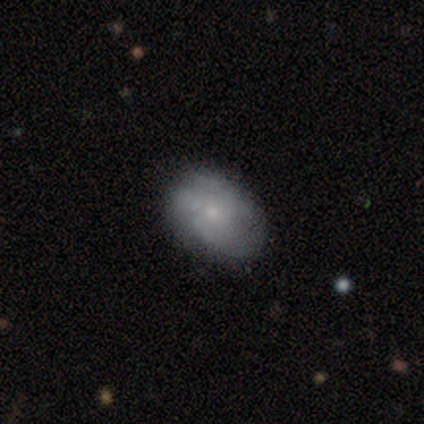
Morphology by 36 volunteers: Volunteers were most divided on "spiral arms": no: 52%, yes: 48%. More confident: edge-on disk — no (100%); bar — no (100%); bulge size — small (74%); smooth or featured — featured or disk (64%); merging — none (60%).